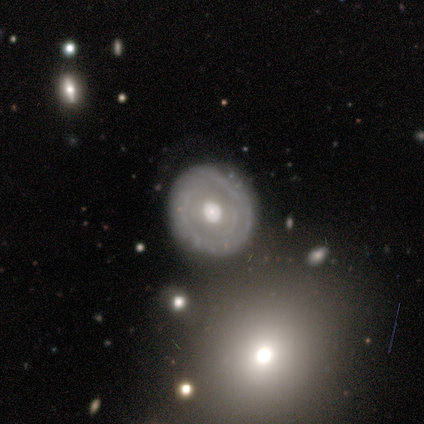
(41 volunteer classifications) Smooth or featured? 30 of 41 (73%) said featured or disk. Edge-on disk? 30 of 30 (100%) said no. Bar? 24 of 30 (80%) said no. Spiral arms? 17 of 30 (57%) said yes. Spiral winding? 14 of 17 (82%) said tight. Spiral arm count? 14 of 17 (82%) said can't tell. Bulge size? 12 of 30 (40%) said moderate. Merging? 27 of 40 (68%) said none.